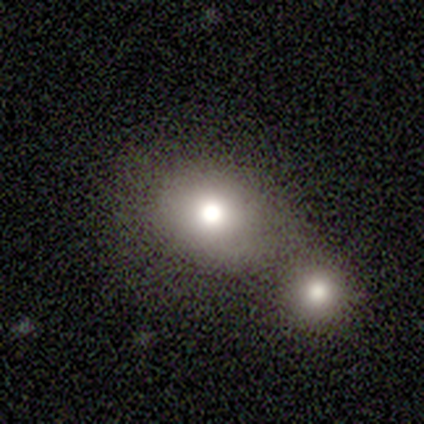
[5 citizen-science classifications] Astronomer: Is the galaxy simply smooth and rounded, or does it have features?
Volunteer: smooth — 60% (runner-up: featured or disk, 40%).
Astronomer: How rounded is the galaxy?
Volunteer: round — 67%.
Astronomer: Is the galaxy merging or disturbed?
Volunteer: none — 40%, tied with merger at 40%.